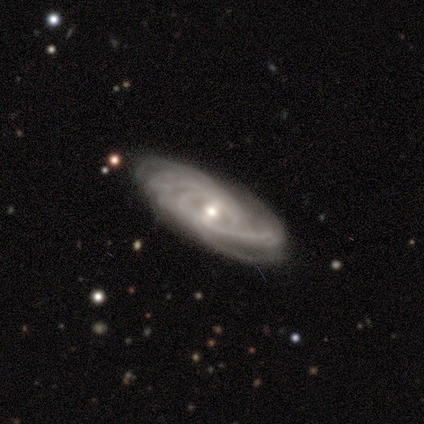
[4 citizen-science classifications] smooth_or_featured: featured or disk (p=1.00)
disk_edge_on: no (p=0.75) [alt: yes p=0.25]
bar: weak (p=0.67) [alt: strong p=0.33]
has_spiral_arms: yes (p=1.00)
spiral_winding: tight (p=0.67) [alt: medium p=0.33]
spiral_arm_count: 3 (p=0.33) [tied with: 4 p=0.33, can't tell p=0.33]
bulge_size: small (p=0.67) [alt: moderate p=0.33]
merging: none (p=1.00)